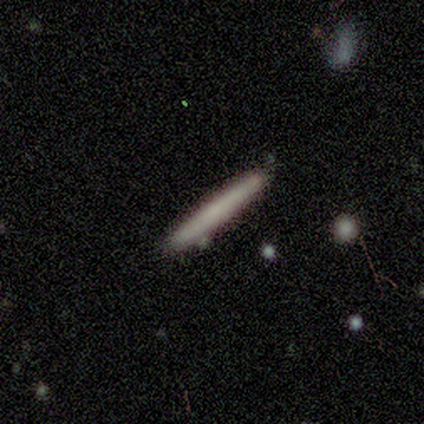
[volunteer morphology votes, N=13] Smooth or featured: smooth — 77% (featured or disk — 23%)
How rounded: cigar-shaped — 100%
Merging: none — 85% (minor disturbance — 8%)